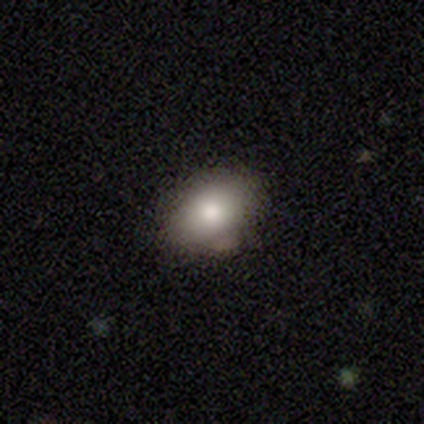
smooth_or_featured: smooth (p=0.75) [alt: featured or disk p=0.25]
how_rounded: in between (p=0.67) [alt: round p=0.33]
merging: none (p=0.75) [alt: minor disturbance p=0.25]